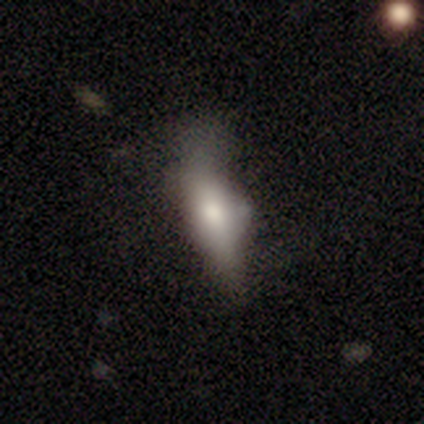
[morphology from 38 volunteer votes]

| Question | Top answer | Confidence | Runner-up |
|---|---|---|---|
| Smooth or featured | smooth | 76% | featured or disk (18%) |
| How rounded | in between | 62% | cigar-shaped (38%) |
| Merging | none | 42% | minor disturbance (28%) |